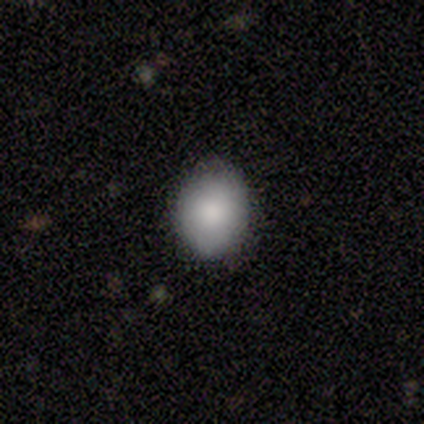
Smooth or featured: smooth — 100%
How rounded: in between — 60% (round — 40%)
Merging: none — 100%